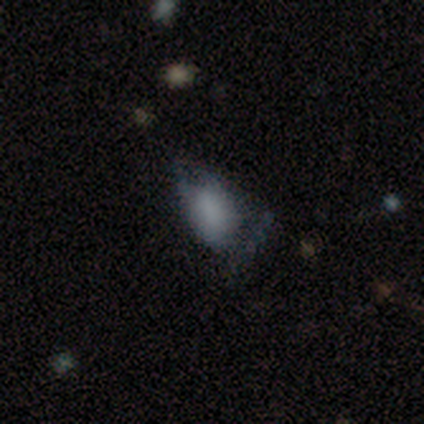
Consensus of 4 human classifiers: Smooth or featured?
  - smooth: 100% *
  - featured or disk: 0%
  - star or artifact: 0%
How rounded?
  - in between: 100% *
  - round: 0%
  - cigar-shaped: 0%
Merging?
  - minor disturbance: 50% *
  - none: 25%
  - major disturbance: 25%
  - merger: 0%